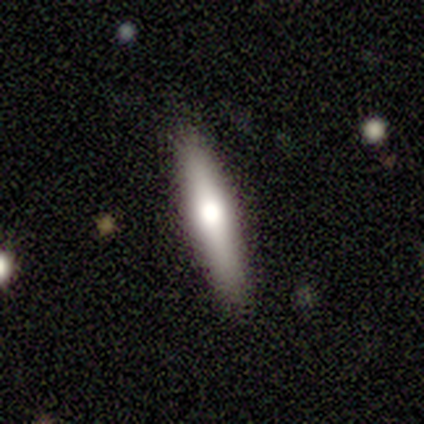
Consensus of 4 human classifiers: Smooth or featured?
  - smooth: 75% *
  - featured or disk: 25%
  - star or artifact: 0%
How rounded?
  - cigar-shaped: 100% *
  - round: 0%
  - in between: 0%
Merging?
  - none: 75% *
  - major disturbance: 25%
  - minor disturbance: 0%
  - merger: 0%